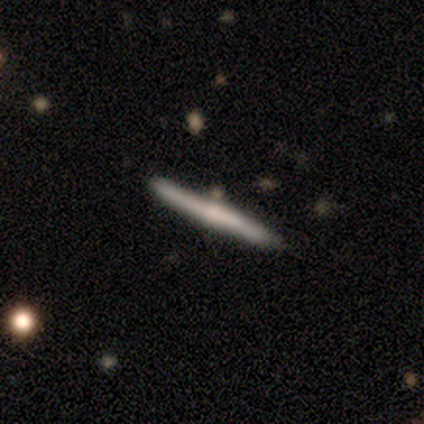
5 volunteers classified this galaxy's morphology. This is clearly a featured or disk galaxy (80%). It is clearly viewed edge-on (100%). Edge-on bulge: possibly none (50%, tied with rounded). Merging: clearly none (100%).